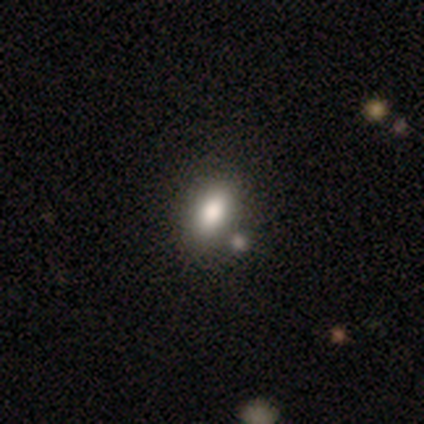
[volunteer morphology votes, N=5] type=smooth (60%); roundness=in between (100%); merging=none (75%).